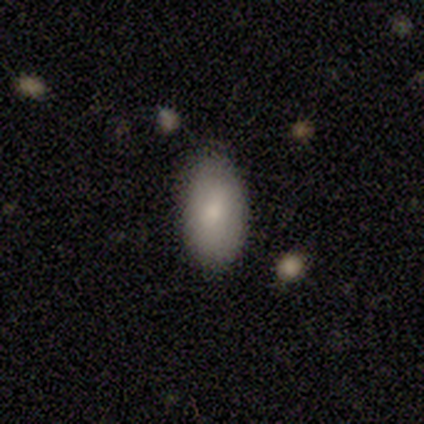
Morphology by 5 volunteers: Smooth or featured? 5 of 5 (100%) said smooth. How rounded? 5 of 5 (100%) said in between. Merging? 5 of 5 (100%) said none.